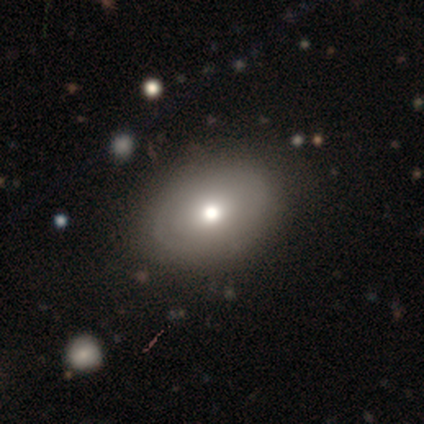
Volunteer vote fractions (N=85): This is likely a smooth galaxy (62%). How rounded: likely in between (75%). Merging: clearly none (81%).